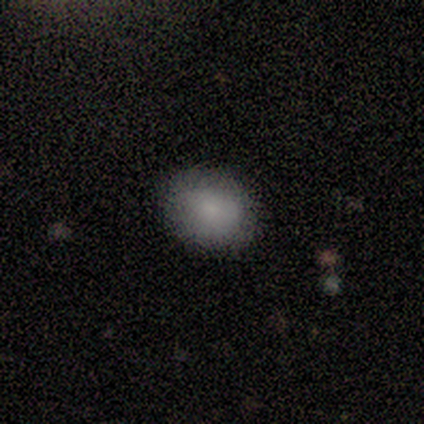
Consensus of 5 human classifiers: Volunteers were most divided on "smooth or featured": smooth: 80%, featured or disk: 20%, star or artifact: 0%. More confident: how rounded — in between (100%); merging — none (100%).